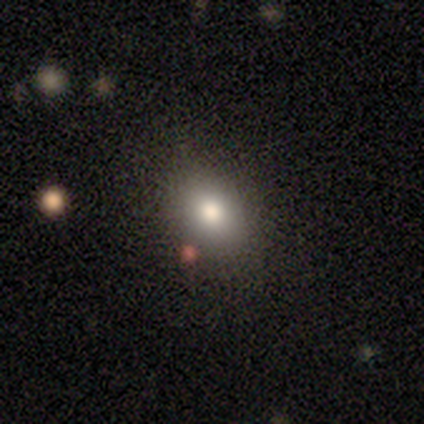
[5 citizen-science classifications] A smooth galaxy with no disk features (60%) that is round (67%). Merging: none (100%).